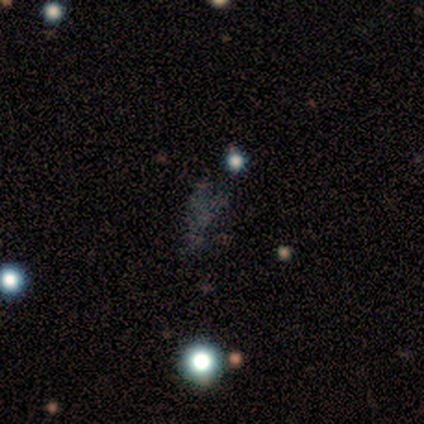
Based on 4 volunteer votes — smooth-or-featured: star or artifact: 50% | smooth: 25% | featured or disk: 25%